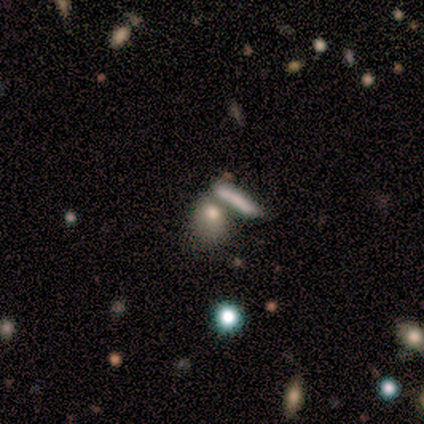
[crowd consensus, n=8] This appears to be a smooth galaxy with no disk features (62%) that is in between round and cigar-shaped (100%). Merging: none (67%).